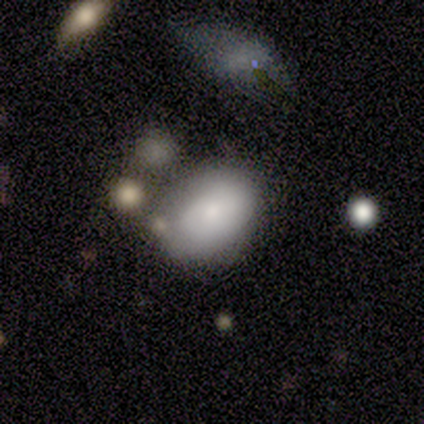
Smooth or featured: smooth — 80% (featured or disk — 20%)
How rounded: in between — 100%
Merging: none — 80% (minor disturbance — 20%)